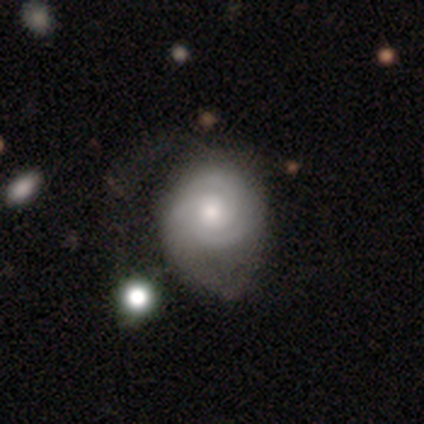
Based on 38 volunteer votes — smooth-or-featured: featured or disk: 71% | smooth: 26% | star or artifact: 3%
  disk-edge-on: no: 100% | yes: 0%
    bar: no: 89% | weak: 11% | strong: 0%
    has-spiral-arms: yes: 85% | no: 15%
      spiral-winding: tight: 57% | medium: 30% | loose: 13%
      spiral-arm-count: 3: 43% | 2: 30% | can't tell: 22% | 1: 4% | 4: 0% | more than 4: 0%
    bulge-size: moderate: 70% | large: 15% | small: 15% | dominant: 0% | none: 0%
  merging: major disturbance: 43% | minor disturbance: 35% | none: 22% | merger: 0%